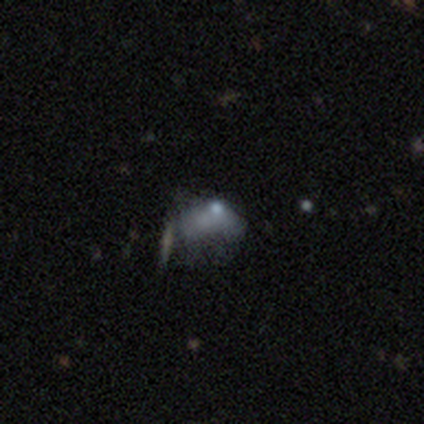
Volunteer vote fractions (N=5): smooth-or-featured: featured or disk: 40% (tied) | star or artifact: 40% (tied) | smooth: 20%
  disk-edge-on: no: 100% | yes: 0%
    bar: no: 100% | strong: 0% | weak: 0%
    has-spiral-arms: no: 100% | yes: 0%
    bulge-size: small: 50% (tied) | none: 50% (tied) | dominant: 0% | large: 0% | moderate: 0%
  merging: none: 33% (tied) | major disturbance: 33% (tied) | merger: 33% (tied) | minor disturbance: 0%